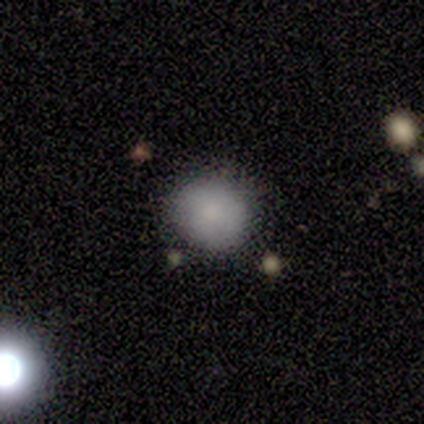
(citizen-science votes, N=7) Smooth or featured: smooth — 100%
How rounded: round — 57% (in between — 43%)
Merging: minor disturbance — 57% (none — 43%)